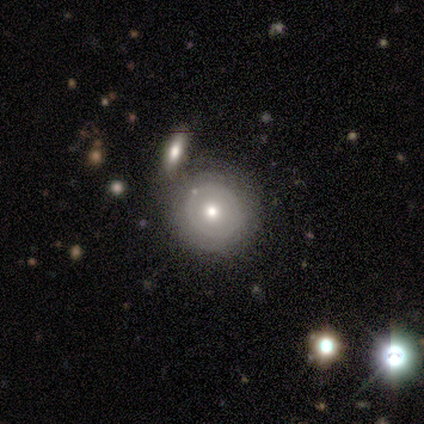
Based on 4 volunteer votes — Morphology: type=smooth (50%, tied with featured or disk); roundness=round (100%); merging=none (100%).